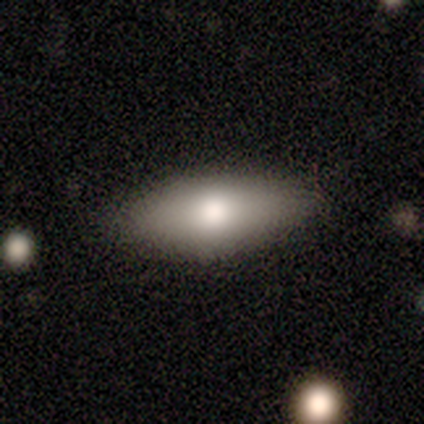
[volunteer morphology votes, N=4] smooth-or-featured: smooth: 75% | star or artifact: 25% | featured or disk: 0%
  how-rounded: in between: 100% | round: 0% | cigar-shaped: 0%
  merging: none: 100% | minor disturbance: 0% | major disturbance: 0% | merger: 0%